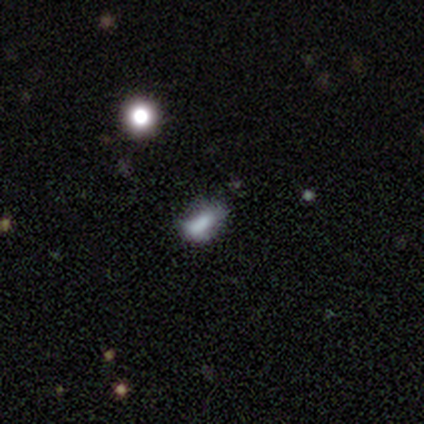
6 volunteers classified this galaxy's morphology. Smooth or featured? 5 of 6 (83%) said smooth. How rounded? 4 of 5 (80%) said in between. Merging? 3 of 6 (50%, tied with minor disturbance) said none.